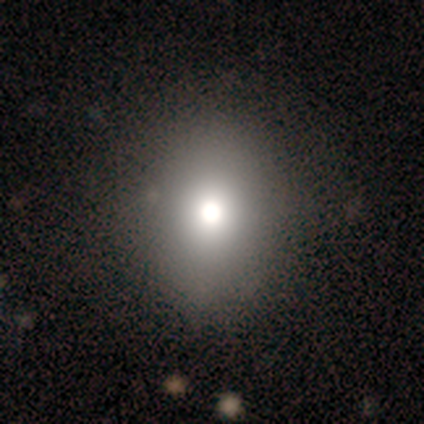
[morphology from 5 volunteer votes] smooth-or-featured: smooth: 80% | star or artifact: 20% | featured or disk: 0%
  how-rounded: in between: 75% | round: 25% | cigar-shaped: 0%
  merging: none: 75% | minor disturbance: 25% | major disturbance: 0% | merger: 0%